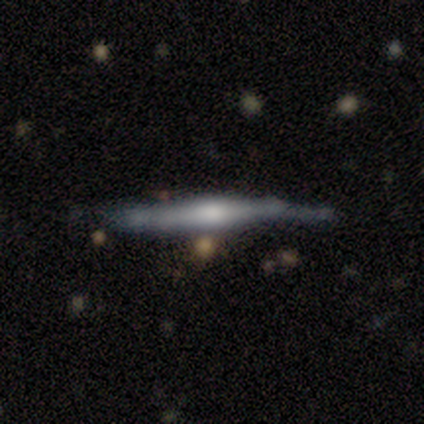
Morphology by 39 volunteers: Smooth or featured? featured or disk (77%)
Edge-on disk? yes (100%)
Edge-on bulge? rounded (83%)
Merging? none (57%)